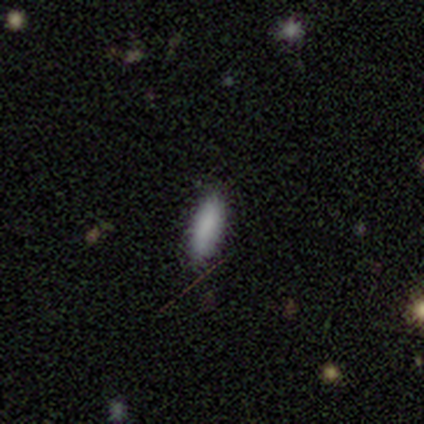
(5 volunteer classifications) This appears to be a smooth galaxy with no disk features (100%) that is in between round and cigar-shaped (80%). Merging: none (100%).